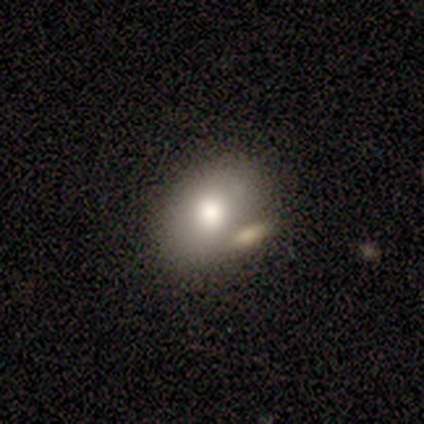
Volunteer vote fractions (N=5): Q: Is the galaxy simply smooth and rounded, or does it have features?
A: smooth — 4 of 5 (80%).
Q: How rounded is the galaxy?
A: in between — 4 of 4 (100%).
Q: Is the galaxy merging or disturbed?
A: none — 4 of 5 (80%).